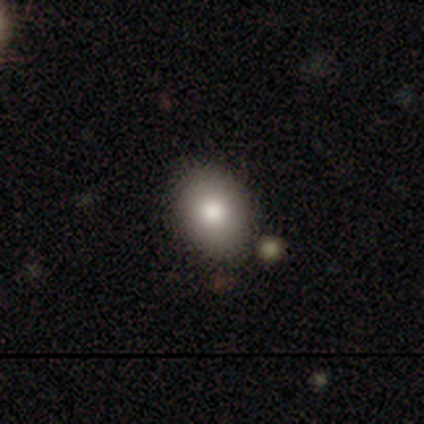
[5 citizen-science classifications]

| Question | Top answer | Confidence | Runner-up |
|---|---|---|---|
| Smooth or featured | smooth | 80% | featured or disk (20%) |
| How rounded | in between | 75% | round (25%) |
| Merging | none | 100% | — |